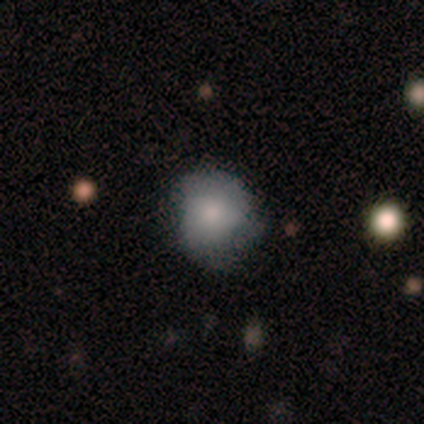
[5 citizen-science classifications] smooth-or-featured: smooth: 40% (tied) | featured or disk: 40% (tied) | star or artifact: 20%
  how-rounded: round: 100% | in between: 0% | cigar-shaped: 0%
  merging: none: 50% | minor disturbance: 25% | major disturbance: 25% | merger: 0%